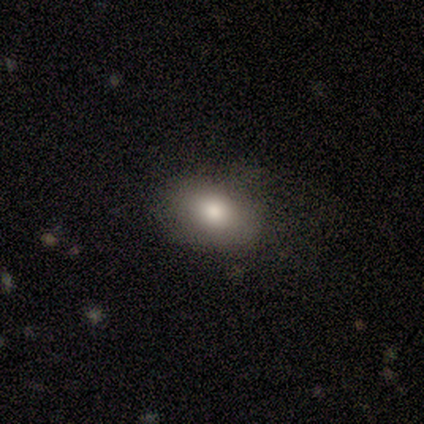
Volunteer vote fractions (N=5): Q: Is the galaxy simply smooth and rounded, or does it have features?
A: smooth — 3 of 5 (60%).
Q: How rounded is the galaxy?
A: in between — 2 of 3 (67%).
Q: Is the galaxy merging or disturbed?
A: none — 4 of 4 (100%).